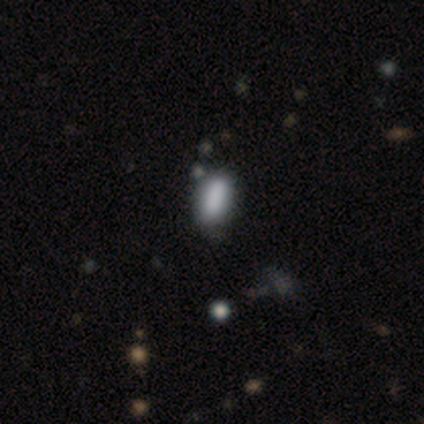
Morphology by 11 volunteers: smooth_or_featured: smooth (p=1.00)
how_rounded: in between (p=1.00)
merging: none (p=0.82) [alt: minor disturbance p=0.09]